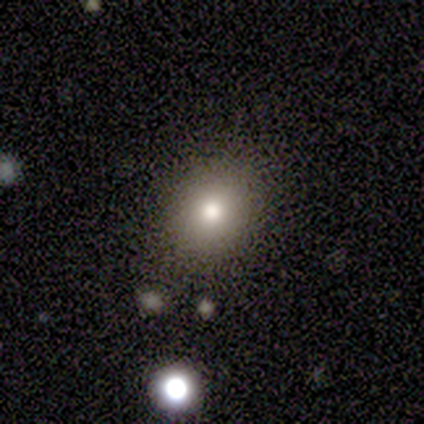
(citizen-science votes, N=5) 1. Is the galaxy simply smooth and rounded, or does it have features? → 80% smooth, 20% star or artifact, 0% featured or disk.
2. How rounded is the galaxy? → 50% round (tied), 50% in between (tied), 0% cigar-shaped.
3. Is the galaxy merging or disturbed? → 75% none, 25% major disturbance, 0% minor disturbance, 0% merger.